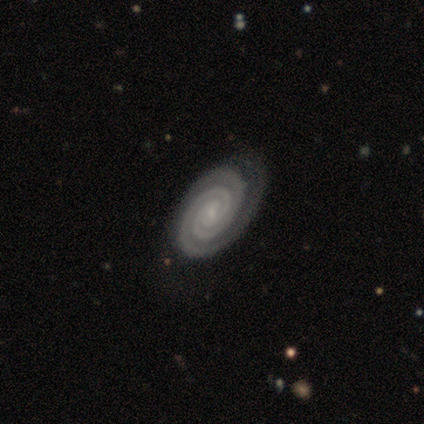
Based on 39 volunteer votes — This appears to be a featured or disk galaxy (100%) with no bar (49%), 2 (71%) tight (95%) spiral arms (97%) and a small central bulge (74%). Merging: none (54%).